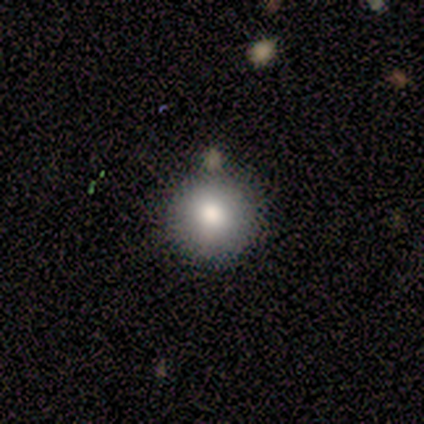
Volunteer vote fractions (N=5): smooth-or-featured: smooth: 100% | featured or disk: 0% | star or artifact: 0%
  how-rounded: round: 80% | in between: 20% | cigar-shaped: 0%
  merging: none: 80% | minor disturbance: 20% | major disturbance: 0% | merger: 0%